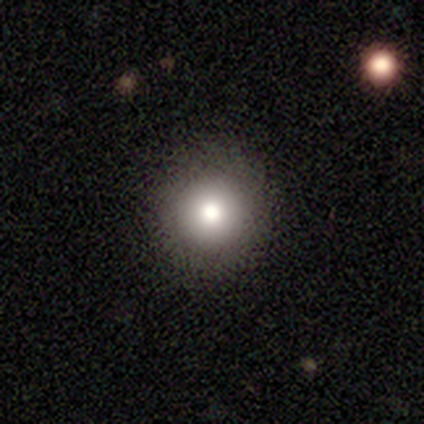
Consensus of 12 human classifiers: A smooth galaxy with no disk features (83%) that is round (100%).

Vote fractions:
- Smooth or featured? smooth: 83% / star or artifact: 17% / featured or disk: 0%
- How rounded? round: 100% / in between: 0% / cigar-shaped: 0%
- Merging? none: 90% / minor disturbance: 10% / major disturbance: 0% / merger: 0%